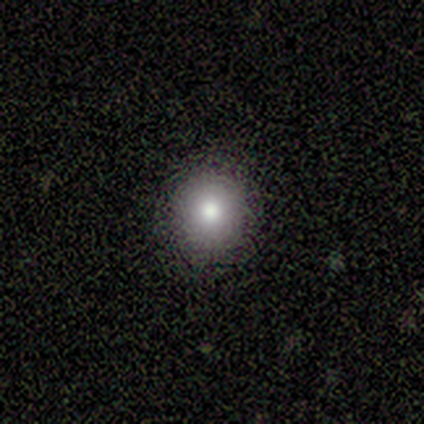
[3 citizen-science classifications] smooth 100%, featured or disk 0%, star or artifact 0%. Down the decision tree: how rounded — round (100%); merging — none (100%).